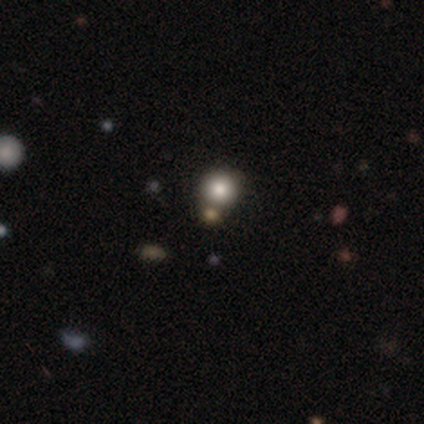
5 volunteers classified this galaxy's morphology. Overall: smooth (60%; star or artifact 40%). How rounded: round (100%). Merging: none (67%; merger 33%).